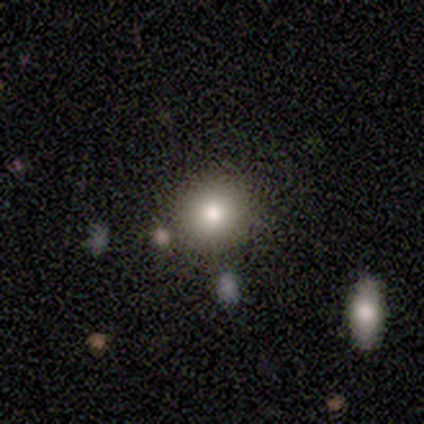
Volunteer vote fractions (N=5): This appears to be a smooth galaxy with no disk features (100%) that is round (80%). Merging: none (80%).